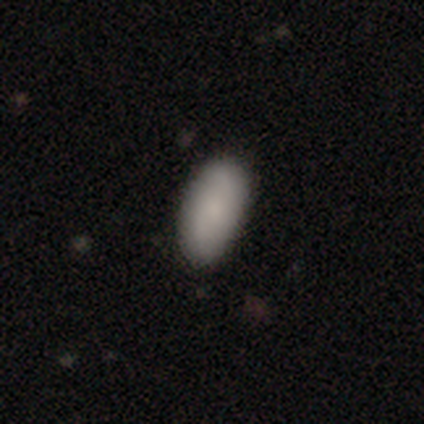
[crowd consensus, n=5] Smooth or featured: smooth — 80% (featured or disk — 20%)
How rounded: in between — 100%
Merging: none — 100%